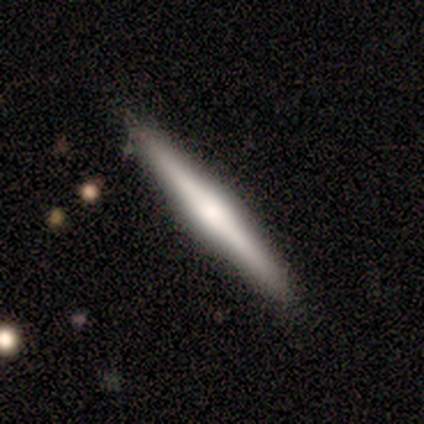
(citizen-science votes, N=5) smooth_or_featured: featured or disk (p=0.80) [alt: smooth p=0.20]
disk_edge_on: yes (p=0.75) [alt: no p=0.25]
edge_on_bulge: rounded (p=1.00)
merging: none (p=0.80) [alt: minor disturbance p=0.20]